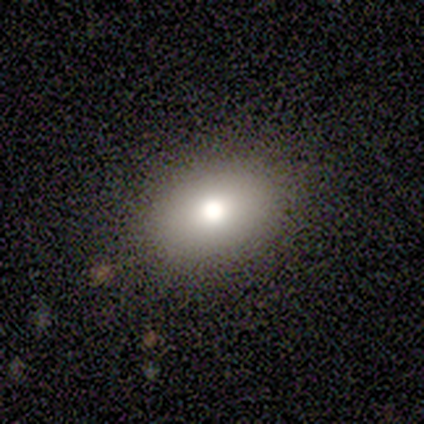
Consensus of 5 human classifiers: Q: Smooth or featured?
A: smooth (80%); runner-up: star or artifact (20%)
Q: How rounded?
A: in between (100%)
Q: Merging?
A: none (100%)